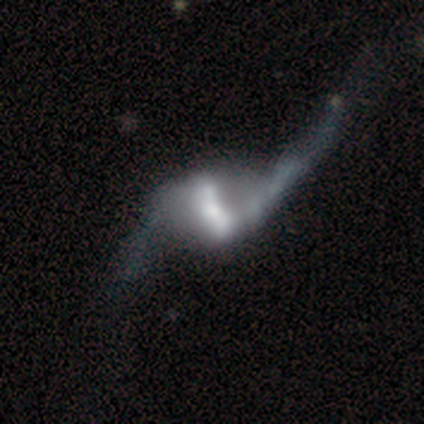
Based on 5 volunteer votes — This appears to be a featured or disk galaxy (80%) with a strong bar (75%), 2 (100%) loose (100%) spiral arms (75%) and a moderate central bulge (50%). Merging: merger (40%).